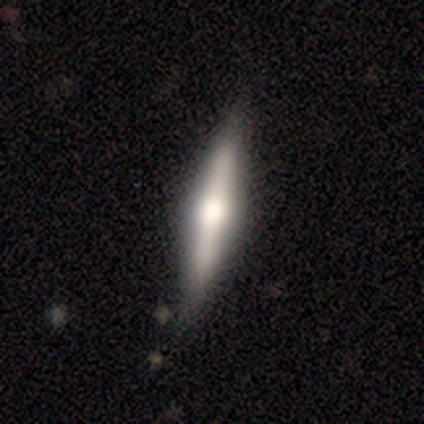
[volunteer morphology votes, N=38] A featured or disk galaxy (58%) viewed edge-on (100%) with a rounded central bulge (77%).

Vote fractions:
- Smooth or featured? featured or disk: 58% / smooth: 39% / star or artifact: 3%
- Edge-on disk? yes: 100% / no: 0%
- Edge-on bulge? rounded: 77% / boxy: 23% / none: 0%
- Merging? none: 84% / minor disturbance: 14% / major disturbance: 3% / merger: 0%